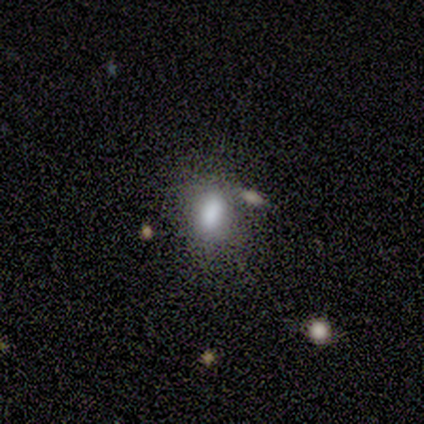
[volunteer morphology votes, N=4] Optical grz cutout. It shows a smooth galaxy with no disk features (100%) that is in between round and cigar-shaped (75%). Merging: none (50%, tied with minor disturbance).